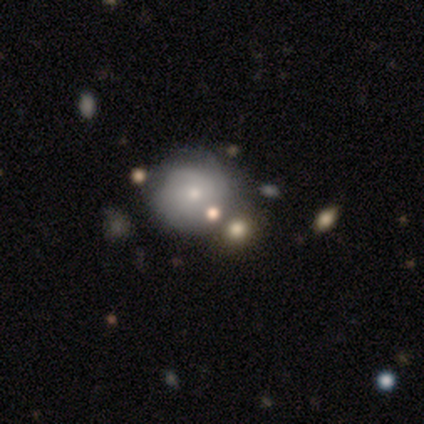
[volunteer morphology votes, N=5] Overall: smooth (60%; featured or disk 20%). How rounded: round (67%; in between 33%). Merging: none (75%).